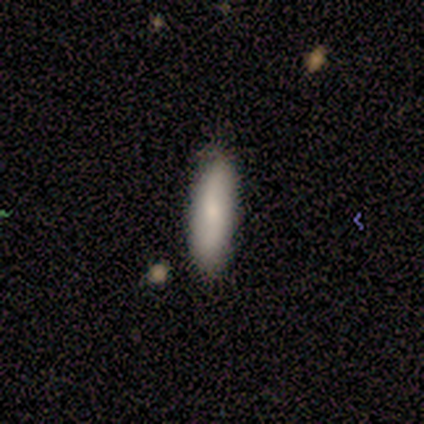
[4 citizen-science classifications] This appears to be a smooth galaxy with no disk features (50%, tied with featured or disk) that is cigar-shaped (100%). Merging: none (75%).